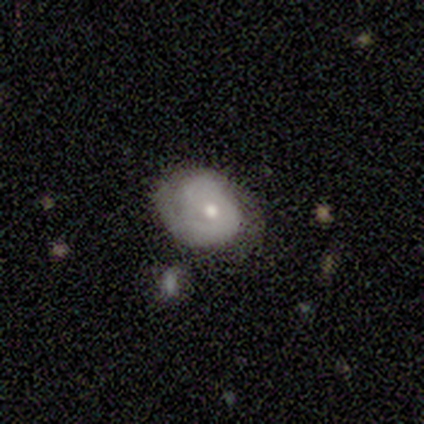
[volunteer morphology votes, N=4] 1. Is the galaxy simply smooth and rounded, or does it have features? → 50% smooth (tied), 50% featured or disk (tied), 0% star or artifact.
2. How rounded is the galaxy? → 100% in between, 0% round, 0% cigar-shaped.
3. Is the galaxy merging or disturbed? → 75% minor disturbance, 25% none, 0% major disturbance, 0% merger.